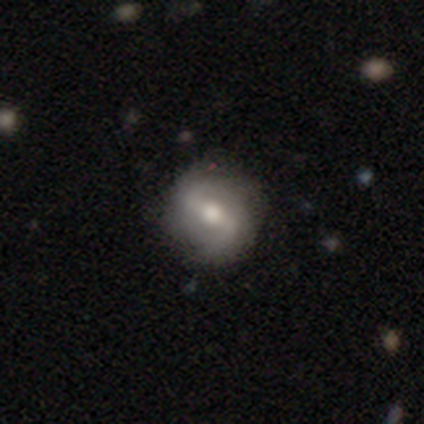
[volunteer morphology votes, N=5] This appears to be a featured or disk galaxy (80%) with a strong bar (50%), 2 (100%) medium (50%, tied with loose) spiral arms (100%) and a large central bulge (50%, tied with moderate). Merging: none (100%).